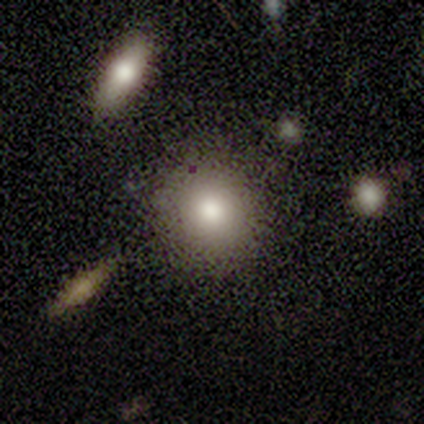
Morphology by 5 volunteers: Smooth or featured? 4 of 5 (80%) said smooth. How rounded? 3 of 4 (75%) said round. Merging? 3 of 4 (75%) said none.